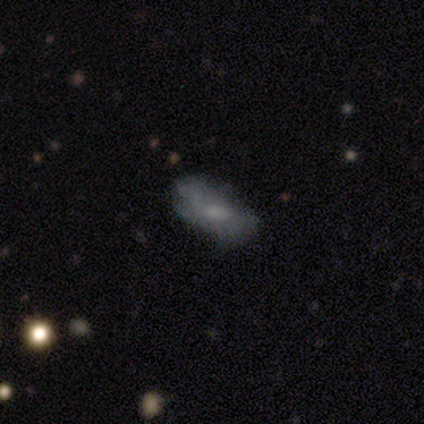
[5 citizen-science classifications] Smooth or featured?
  - featured or disk: 60% *
  - smooth: 40%
  - star or artifact: 0%
Edge-on disk?
  - no: 67% *
  - yes: 33%
Bar?
  - weak: 50% * (tied)
  - no: 50% * (tied)
  - strong: 0%
Spiral arms?
  - yes: 50% * (tied)
  - no: 50% * (tied)
Spiral winding?
  - medium: 100% *
  - tight: 0%
  - loose: 0%
Spiral arm count?
  - 2: 100% *
  - 1: 0%
  - 3: 0%
  - 4: 0%
  - more than 4: 0%
  - can't tell: 0%
Bulge size?
  - small: 100% *
  - dominant: 0%
  - large: 0%
  - moderate: 0%
  - none: 0%
Merging?
  - none: 60% *
  - minor disturbance: 40%
  - major disturbance: 0%
  - merger: 0%